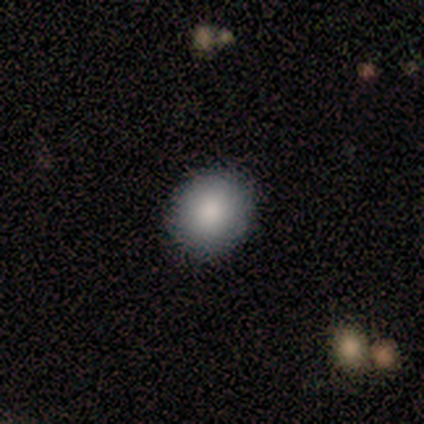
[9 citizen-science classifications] smooth-or-featured: smooth: 100% | featured or disk: 0% | star or artifact: 0%
  how-rounded: round: 89% | in between: 11% | cigar-shaped: 0%
  merging: none: 89% | minor disturbance: 11% | major disturbance: 0% | merger: 0%